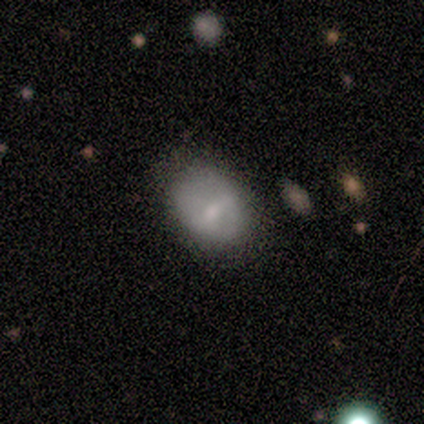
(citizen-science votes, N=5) A smooth galaxy with no disk features (60%) that is in between round and cigar-shaped (67%). Merging: none (60%).